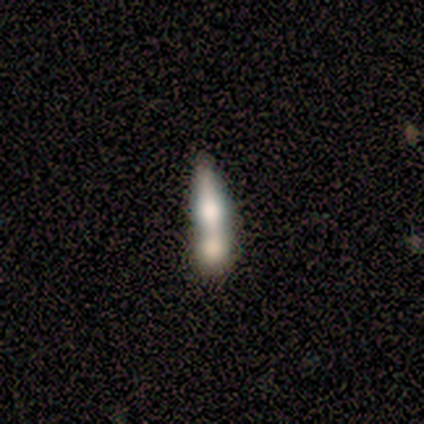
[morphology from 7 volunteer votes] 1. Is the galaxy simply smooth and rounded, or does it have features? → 57% featured or disk, 29% smooth, 14% star or artifact.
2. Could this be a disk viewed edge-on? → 50% yes (tied), 50% no (tied).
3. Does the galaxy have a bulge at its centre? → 100% rounded, 0% boxy, 0% none.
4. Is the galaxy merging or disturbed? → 67% merger, 33% none, 0% minor disturbance, 0% major disturbance.